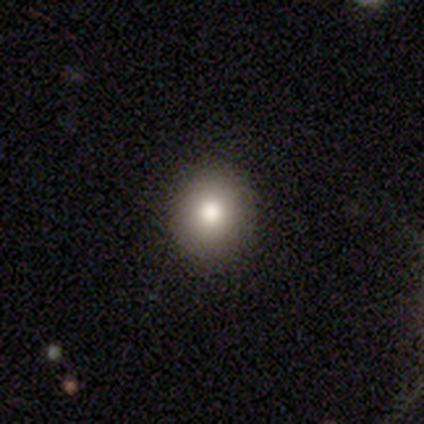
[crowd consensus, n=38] Smooth or featured? 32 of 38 (84%) said smooth. How rounded? 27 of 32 (84%) said round. Merging? 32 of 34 (94%) said none.